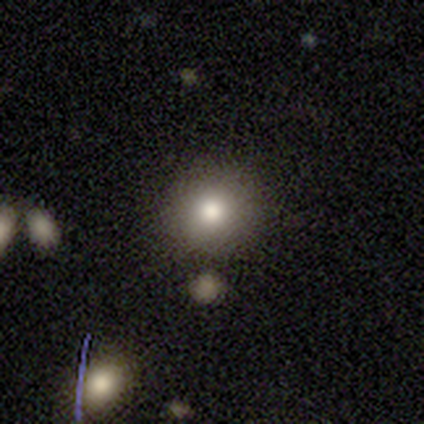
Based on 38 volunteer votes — This appears to be a smooth galaxy with no disk features (74%) that is round (96%). Merging: none (81%).